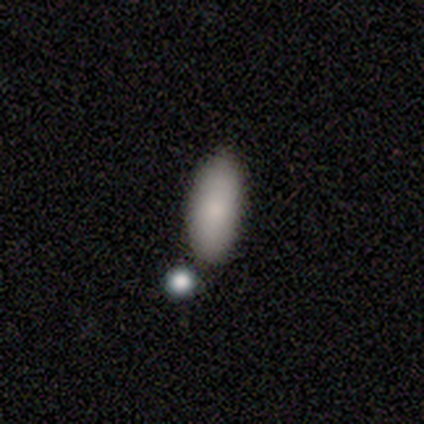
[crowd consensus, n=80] Overall: smooth (89%). How rounded: in between (82%). Merging: none (76%).